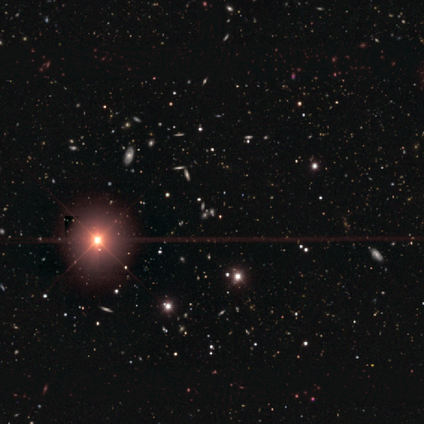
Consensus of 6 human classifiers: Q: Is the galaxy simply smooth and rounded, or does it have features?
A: star or artifact — 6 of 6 (100%).